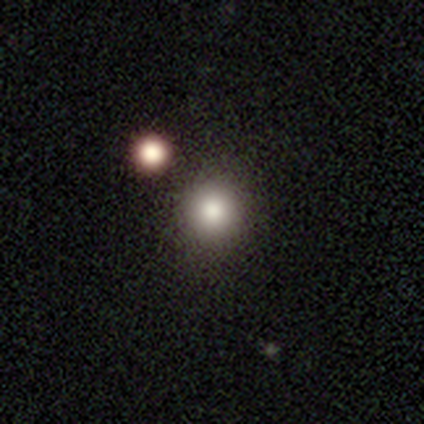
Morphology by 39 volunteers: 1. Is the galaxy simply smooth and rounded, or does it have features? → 79% smooth, 13% star or artifact, 8% featured or disk.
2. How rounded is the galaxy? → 97% round, 3% in between, 0% cigar-shaped.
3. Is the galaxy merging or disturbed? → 85% none, 6% minor disturbance, 6% merger, 3% major disturbance.